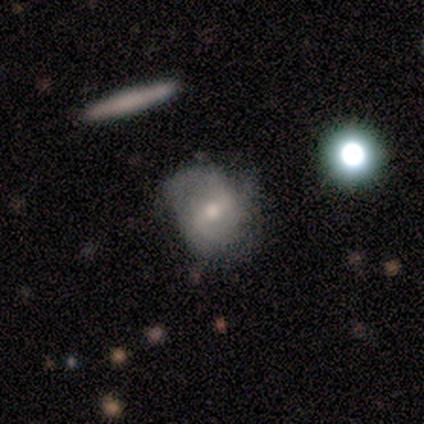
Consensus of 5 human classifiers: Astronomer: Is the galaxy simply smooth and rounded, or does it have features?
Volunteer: featured or disk — 100%.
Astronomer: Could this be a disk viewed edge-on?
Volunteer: no — 100%.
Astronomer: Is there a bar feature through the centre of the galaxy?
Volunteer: strong — 60% (runner-up: weak, 40%).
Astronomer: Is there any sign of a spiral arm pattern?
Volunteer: yes — 100%.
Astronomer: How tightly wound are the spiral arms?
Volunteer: medium — 60% (runner-up: loose, 40%).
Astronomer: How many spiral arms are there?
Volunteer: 2 — 80%.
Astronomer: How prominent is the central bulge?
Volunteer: moderate — 100%.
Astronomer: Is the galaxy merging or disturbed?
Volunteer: none — 40%, tied with minor disturbance at 40%.